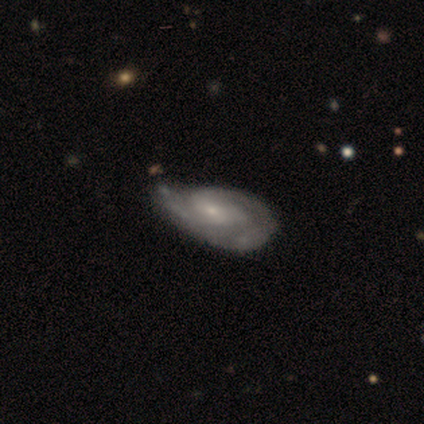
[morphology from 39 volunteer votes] Smooth or featured? featured or disk (79%)
Edge-on disk? no (100%)
Bar? no (71%)
Spiral arms? yes (87%)
Spiral winding? tight (48%, tied with medium)
Spiral arm count? 2 (52%)
Bulge size? small (65%)
Merging? none (42%)